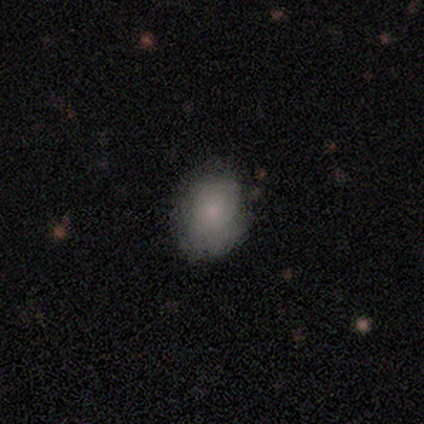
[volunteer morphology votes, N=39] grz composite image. It shows a smooth galaxy with no disk features (79%) that is in between round and cigar-shaped (52%). Merging: none (68%).